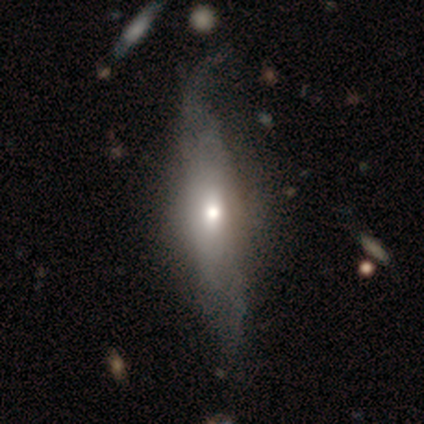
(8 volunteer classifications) Smooth or featured: featured or disk — 62% (smooth — 25%)
Edge-on disk: yes — 60% (no — 40%)
Edge-on bulge: rounded — 100%
Merging: minor disturbance — 57% (none — 29%)